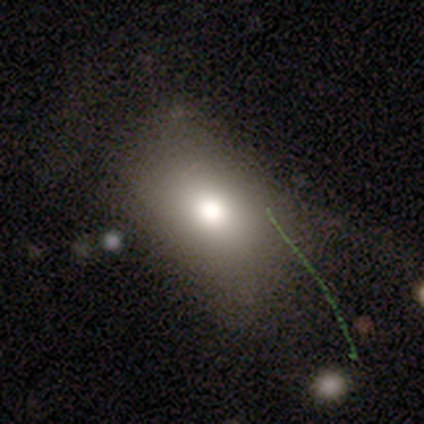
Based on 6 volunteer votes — smooth 83%, star or artifact 17%, featured or disk 0%. Down the decision tree: how rounded — in between (100%); merging — none (60%).